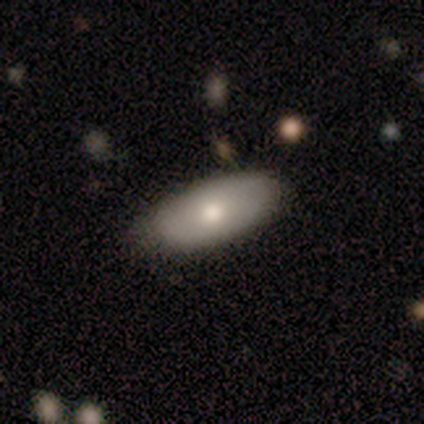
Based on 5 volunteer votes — Morphology: type=smooth (80%); roundness=in between (100%); merging=none (60%).